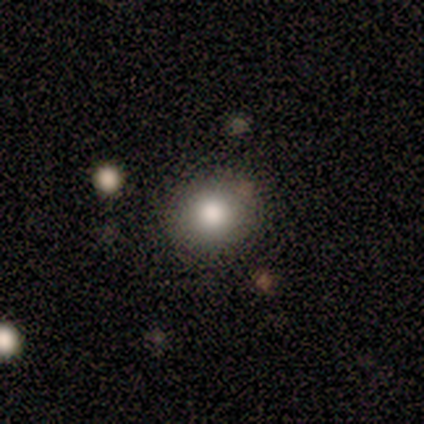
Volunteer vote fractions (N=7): smooth-or-featured: smooth: 100% | featured or disk: 0% | star or artifact: 0%
  how-rounded: round: 86% | in between: 14% | cigar-shaped: 0%
  merging: none: 57% | merger: 29% | minor disturbance: 14% | major disturbance: 0%